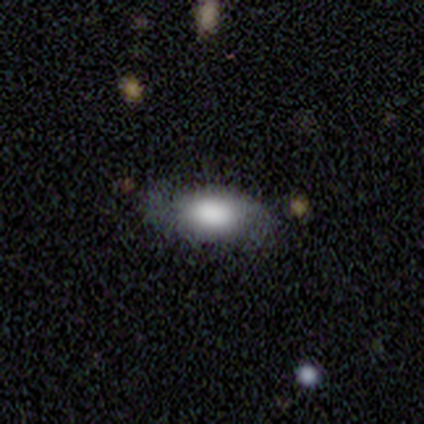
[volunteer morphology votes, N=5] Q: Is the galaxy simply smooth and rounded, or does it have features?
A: smooth — 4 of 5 (80%).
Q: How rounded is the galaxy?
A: in between — 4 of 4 (100%).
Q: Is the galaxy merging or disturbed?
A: none — 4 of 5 (80%).